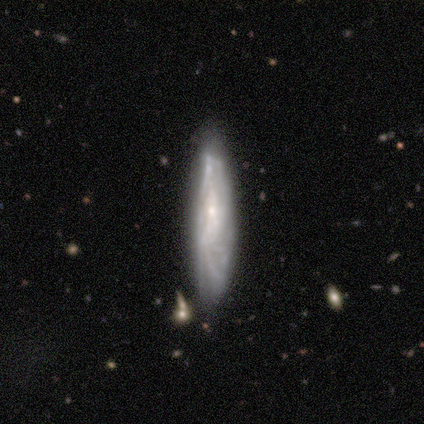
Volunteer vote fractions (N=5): Volunteers were most divided on "merging" (2-way tie): none: 40%, minor disturbance: 40%, merger: 20%, major disturbance: 0%. More confident: how rounded — in between (100%); smooth or featured — smooth (60%).